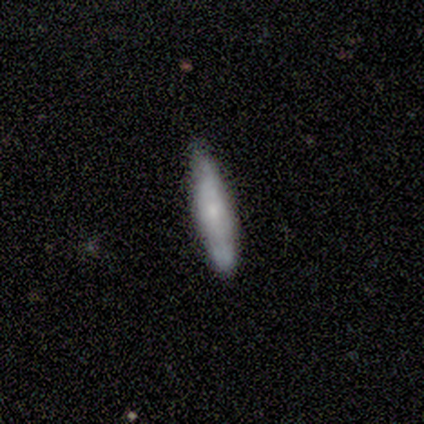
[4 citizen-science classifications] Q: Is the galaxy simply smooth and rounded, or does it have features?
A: smooth — 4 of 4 (100%).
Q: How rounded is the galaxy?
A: in between — 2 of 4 (50%, tied with cigar-shaped).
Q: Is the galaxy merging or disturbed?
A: none — 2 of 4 (50%, tied with minor disturbance).